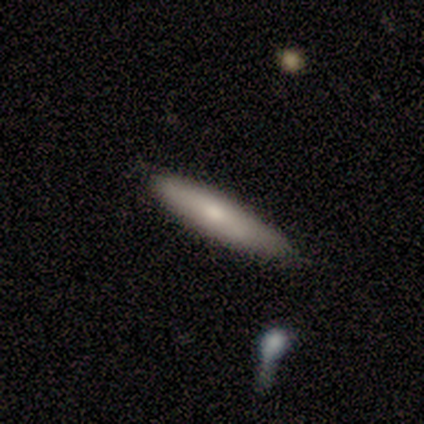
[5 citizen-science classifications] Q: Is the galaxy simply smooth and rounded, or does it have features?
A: smooth — 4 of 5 (80%).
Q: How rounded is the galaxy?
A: cigar-shaped — 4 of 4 (100%).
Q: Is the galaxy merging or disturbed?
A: none — 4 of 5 (80%).